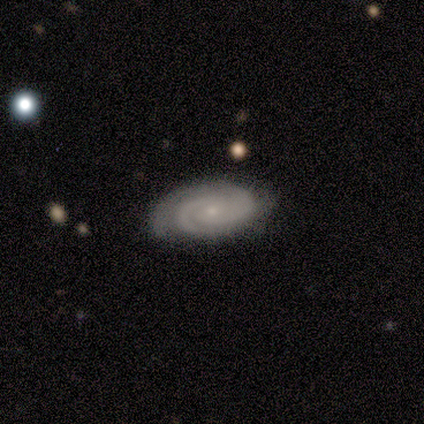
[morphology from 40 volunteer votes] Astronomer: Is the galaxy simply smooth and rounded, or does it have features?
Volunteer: featured or disk — 92%.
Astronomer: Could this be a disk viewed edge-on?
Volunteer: no — 95%.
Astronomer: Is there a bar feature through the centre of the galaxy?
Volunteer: no — 66%.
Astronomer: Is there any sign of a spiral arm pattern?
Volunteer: yes — 100%.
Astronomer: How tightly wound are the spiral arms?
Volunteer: tight — 83%.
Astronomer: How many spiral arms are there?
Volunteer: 2 — 74%.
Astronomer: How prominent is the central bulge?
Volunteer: small — 80%.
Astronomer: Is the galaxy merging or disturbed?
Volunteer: none — 65%.